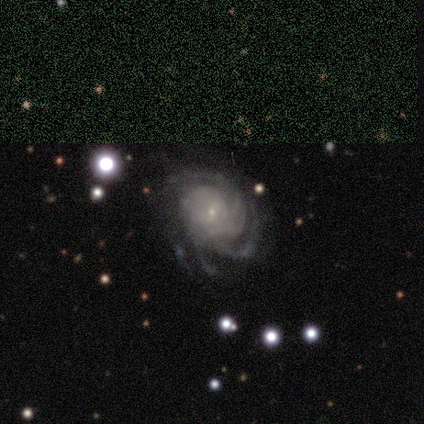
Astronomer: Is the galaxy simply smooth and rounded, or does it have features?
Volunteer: featured or disk — 100%.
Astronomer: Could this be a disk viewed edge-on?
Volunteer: no — 100%.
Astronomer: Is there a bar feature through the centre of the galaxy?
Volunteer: no — 79%.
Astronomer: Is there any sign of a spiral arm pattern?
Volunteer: yes — 92%.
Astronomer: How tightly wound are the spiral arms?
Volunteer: tight — 69%.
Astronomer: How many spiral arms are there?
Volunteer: can't tell — 39% (runner-up: 3, 22%).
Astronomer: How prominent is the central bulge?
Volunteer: small — 87%.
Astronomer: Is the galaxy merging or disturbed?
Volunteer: none — 41% (runner-up: minor disturbance, 26%).